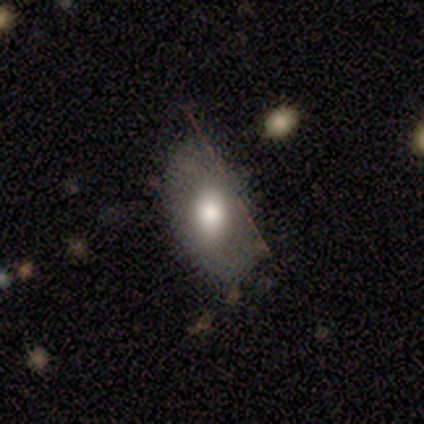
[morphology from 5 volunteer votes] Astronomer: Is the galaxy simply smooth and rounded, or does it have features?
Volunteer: smooth — 100%.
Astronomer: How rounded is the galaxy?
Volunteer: in between — 100%.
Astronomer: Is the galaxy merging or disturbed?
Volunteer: none — 80%.